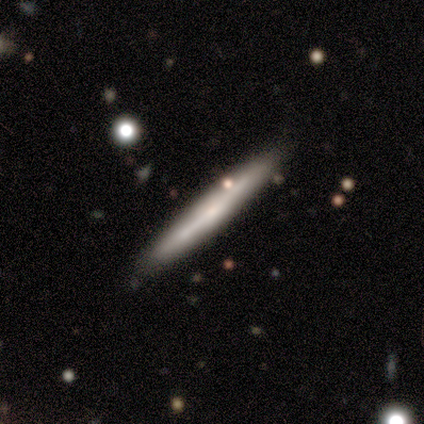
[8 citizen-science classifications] featured or disk 62%, smooth 38%, star or artifact 0%. Down the decision tree: edge-on disk — yes (100%); edge-on bulge — none (80%); merging — none (88%).